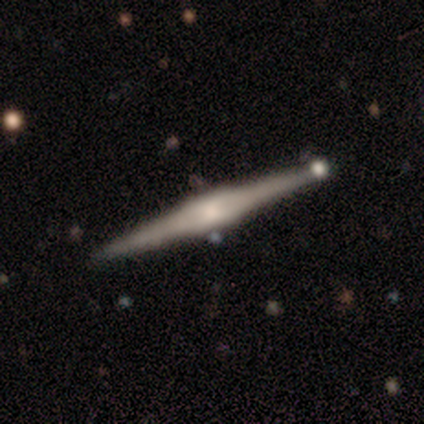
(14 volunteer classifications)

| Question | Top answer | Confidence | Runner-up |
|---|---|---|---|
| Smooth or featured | featured or disk | 79% | smooth (21%) |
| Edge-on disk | yes | 100% | — |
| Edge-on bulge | boxy | 55% | rounded (27%) |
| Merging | none | 93% | minor disturbance (7%) |